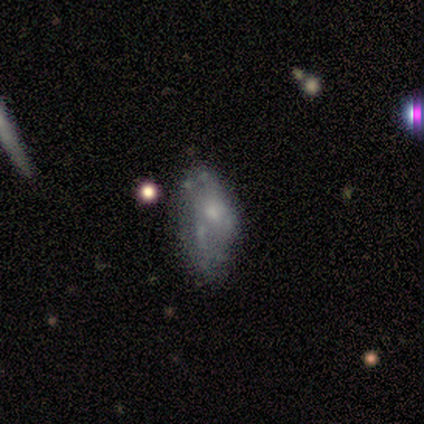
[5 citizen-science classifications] Morphology: type=smooth (40%, tied with featured or disk); roundness=in between (100%); merging=minor disturbance (75%).